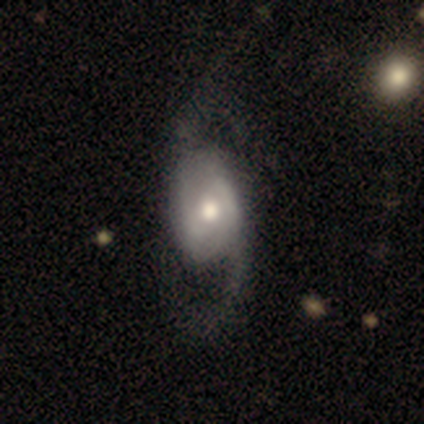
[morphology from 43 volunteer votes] type=featured or disk (91%); edge-on=no (95%); bar=no (54%); spiral arms=yes (97%); winding=loose (58%); arm count=2 (92%); bulge=moderate (84%); merging=none (52%).